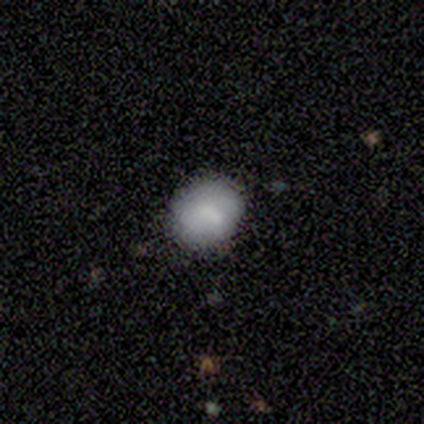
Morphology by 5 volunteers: smooth_or_featured: smooth (p=0.80) [alt: featured or disk p=0.20]
how_rounded: round (p=0.50) [tied with: in between p=0.50]
merging: none (p=0.60) [alt: minor disturbance p=0.20]